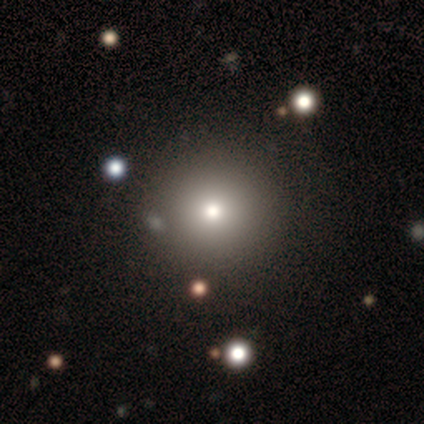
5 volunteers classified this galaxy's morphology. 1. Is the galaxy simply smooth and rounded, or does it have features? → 60% smooth, 40% star or artifact, 0% featured or disk.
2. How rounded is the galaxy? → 100% round, 0% in between, 0% cigar-shaped.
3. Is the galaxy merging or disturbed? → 100% none, 0% minor disturbance, 0% major disturbance, 0% merger.